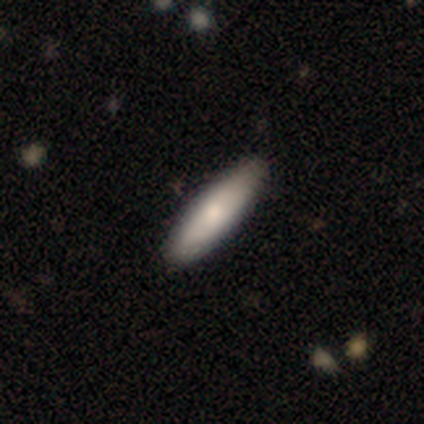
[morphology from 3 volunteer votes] Q: Smooth or featured?
A: smooth (100%)
Q: How rounded?
A: cigar-shaped (67%); runner-up: in between (33%)
Q: Merging?
A: none (100%)